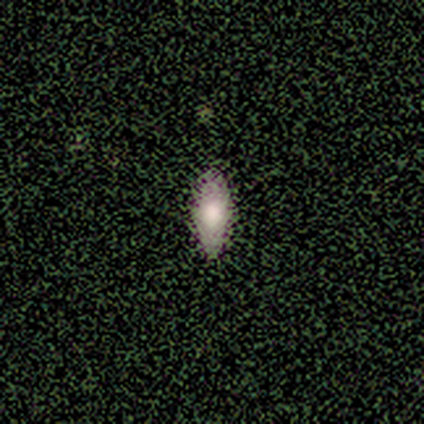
Smooth or featured?
  - smooth: 80% *
  - featured or disk: 20%
  - star or artifact: 0%
How rounded?
  - in between: 50% * (tied)
  - cigar-shaped: 50% * (tied)
  - round: 0%
Merging?
  - none: 80% *
  - minor disturbance: 20%
  - major disturbance: 0%
  - merger: 0%